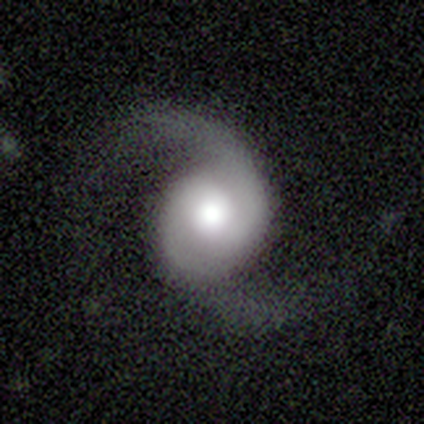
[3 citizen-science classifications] Smooth or featured?
  - featured or disk: 100% *
  - smooth: 0%
  - star or artifact: 0%
Edge-on disk?
  - no: 100% *
  - yes: 0%
Bar?
  - no: 67% *
  - weak: 33%
  - strong: 0%
Spiral arms?
  - yes: 100% *
  - no: 0%
Spiral winding?
  - medium: 100% *
  - tight: 0%
  - loose: 0%
Spiral arm count?
  - 2: 100% *
  - 1: 0%
  - 3: 0%
  - 4: 0%
  - more than 4: 0%
  - can't tell: 0%
Bulge size?
  - large: 100% *
  - dominant: 0%
  - moderate: 0%
  - small: 0%
  - none: 0%
Merging?
  - none: 67% *
  - major disturbance: 33%
  - minor disturbance: 0%
  - merger: 0%